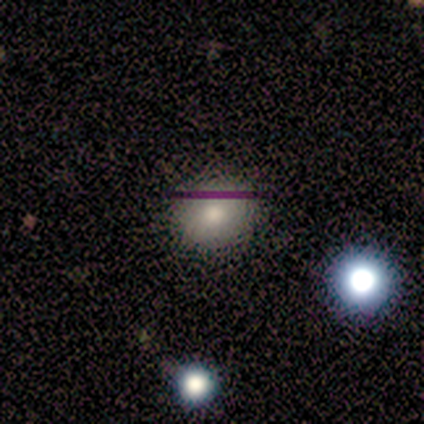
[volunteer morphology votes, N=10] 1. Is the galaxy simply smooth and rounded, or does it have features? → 90% smooth, 10% star or artifact, 0% featured or disk.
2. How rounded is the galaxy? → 67% round, 33% in between, 0% cigar-shaped.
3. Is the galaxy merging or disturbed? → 89% none, 11% merger, 0% minor disturbance, 0% major disturbance.